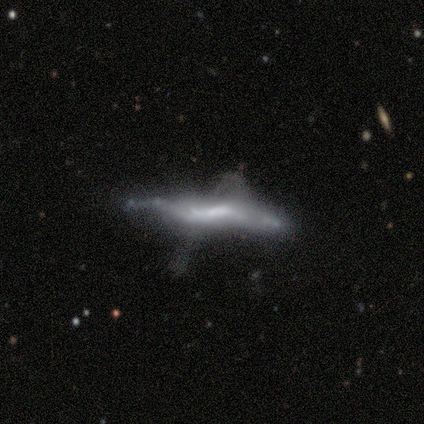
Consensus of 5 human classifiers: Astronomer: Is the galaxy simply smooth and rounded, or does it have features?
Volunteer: featured or disk — 100%.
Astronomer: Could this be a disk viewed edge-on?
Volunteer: yes — 100%.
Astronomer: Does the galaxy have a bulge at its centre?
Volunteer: none — 60% (runner-up: boxy, 40%).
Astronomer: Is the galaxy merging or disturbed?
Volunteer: merger — 60%.